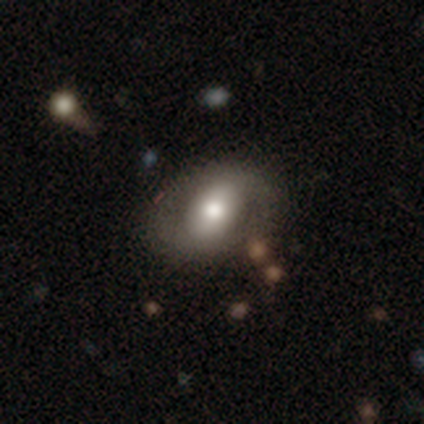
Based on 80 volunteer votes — Overall: featured or disk (50%; smooth 46%). Edge-on disk: no (98%). Bar: no (44%; strong 28%). Spiral arms: no (69%; yes 31%). Bulge size: moderate (62%; large 31%). Merging: none (40%; minor disturbance 8%).